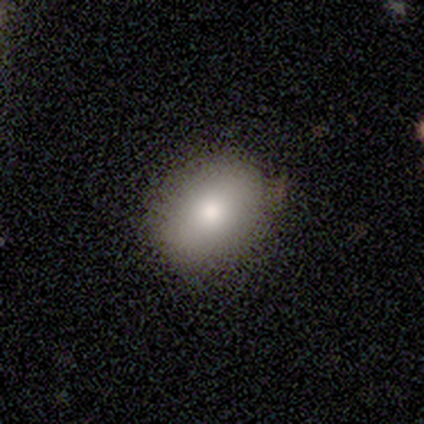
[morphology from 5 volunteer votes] type=smooth (40%, tied with featured or disk); roundness=in between (100%); merging=none (75%).